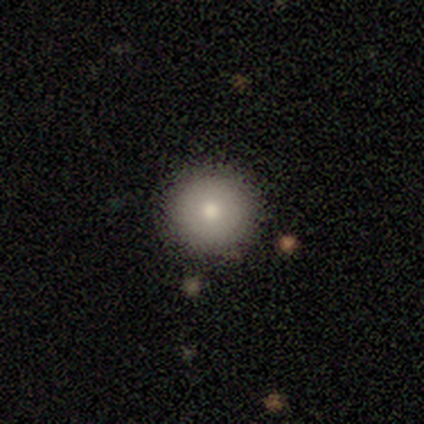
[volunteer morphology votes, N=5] Smooth or featured: smooth — 80% (star or artifact — 20%)
How rounded: round — 100%
Merging: none — 100%